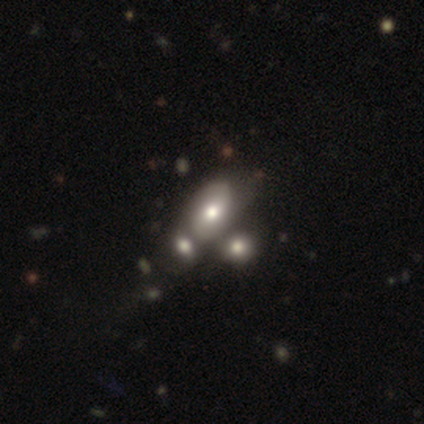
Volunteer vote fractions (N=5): Smooth or featured? smooth (80%)
How rounded? in between (100%)
Merging? none (50%, tied with merger)